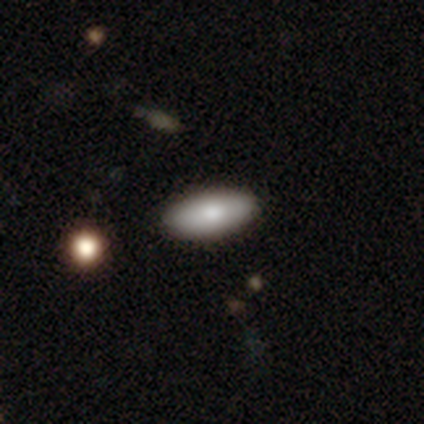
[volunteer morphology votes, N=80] Overall: smooth (91%). How rounded: in between (90%). Merging: none (44%; merger 8%).